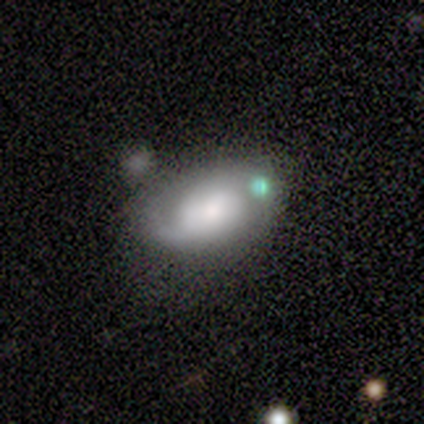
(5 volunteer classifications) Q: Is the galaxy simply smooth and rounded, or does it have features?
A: featured or disk — 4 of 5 (80%).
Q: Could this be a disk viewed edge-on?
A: no — 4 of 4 (100%).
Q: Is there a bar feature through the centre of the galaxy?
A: no — 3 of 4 (75%).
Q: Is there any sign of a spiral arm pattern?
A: yes — 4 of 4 (100%).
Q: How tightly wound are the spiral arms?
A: tight — 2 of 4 (50%, tied with loose).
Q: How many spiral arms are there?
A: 2 — 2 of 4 (50%).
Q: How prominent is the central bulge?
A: large — 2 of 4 (50%, tied with small).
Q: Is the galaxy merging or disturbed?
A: none — 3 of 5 (60%).